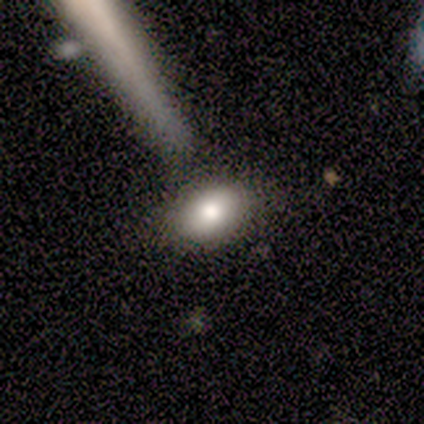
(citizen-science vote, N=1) Overall: smooth (100%). How rounded: in between (100%). Merging: none (100%).